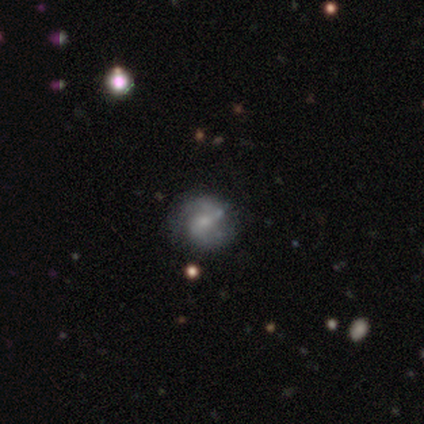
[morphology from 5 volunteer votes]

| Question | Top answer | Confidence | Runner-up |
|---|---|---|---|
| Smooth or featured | featured or disk | 80% | star or artifact (20%) |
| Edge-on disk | no | 100% | — |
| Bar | no | 50% | strong (25%) |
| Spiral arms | yes | 75% | no (25%) |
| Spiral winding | tight | 67% | medium (33%) |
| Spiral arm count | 2 | 100% | — |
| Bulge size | moderate | 50% | tied: small (50%) |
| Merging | none | 75% | minor disturbance (25%) |